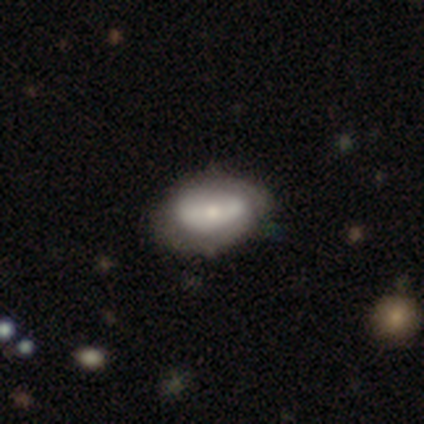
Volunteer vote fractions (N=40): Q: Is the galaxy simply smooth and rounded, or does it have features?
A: featured or disk — 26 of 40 (65%).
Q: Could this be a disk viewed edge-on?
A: no — 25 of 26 (96%).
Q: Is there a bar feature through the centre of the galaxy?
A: no — 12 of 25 (48%).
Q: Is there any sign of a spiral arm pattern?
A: yes — 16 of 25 (64%).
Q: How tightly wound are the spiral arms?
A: tight — 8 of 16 (50%).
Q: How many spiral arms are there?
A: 2 — 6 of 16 (38%).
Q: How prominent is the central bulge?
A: moderate — 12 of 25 (48%).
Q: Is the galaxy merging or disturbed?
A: none — 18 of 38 (47%).